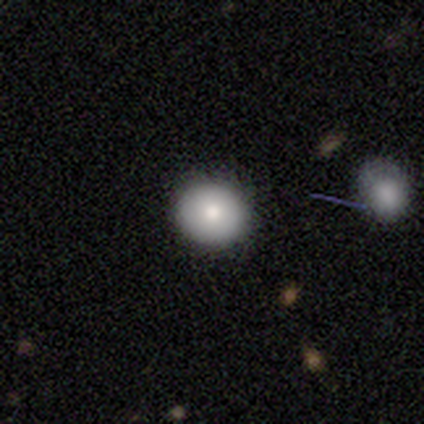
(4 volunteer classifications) This appears to be a smooth galaxy with no disk features (50%, tied with featured or disk) that is round (100%). Merging: none (100%).